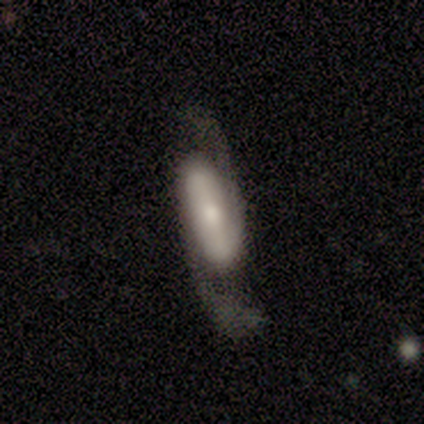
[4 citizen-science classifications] This is likely a featured or disk galaxy (75%). It is clearly not viewed edge-on (100%). Bar: likely no (67%). Spiral arm pattern: clearly yes (100%). Spiral arm count: clearly 2 (100%). Spiral winding: likely loose (67%). Central bulge: marginally large (33%, tied with moderate and small). Merging: likely none (75%).